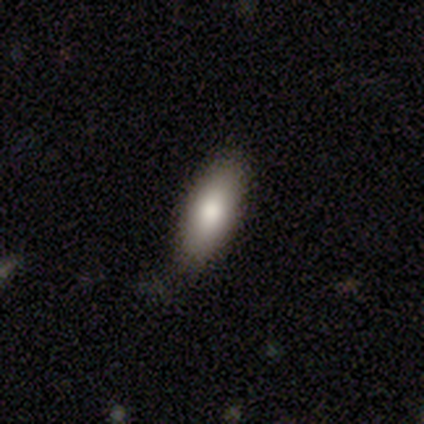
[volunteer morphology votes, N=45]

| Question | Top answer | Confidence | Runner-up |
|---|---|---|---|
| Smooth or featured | smooth | 78% | star or artifact (18%) |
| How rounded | in between | 80% | cigar-shaped (20%) |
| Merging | none | 86% | minor disturbance (11%) |